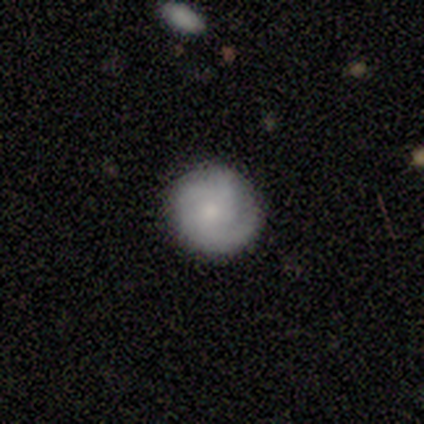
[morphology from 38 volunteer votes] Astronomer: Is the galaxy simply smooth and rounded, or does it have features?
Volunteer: smooth — 53% (runner-up: featured or disk, 45%).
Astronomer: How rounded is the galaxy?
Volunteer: round — 95%.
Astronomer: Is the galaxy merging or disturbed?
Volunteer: none — 76%.